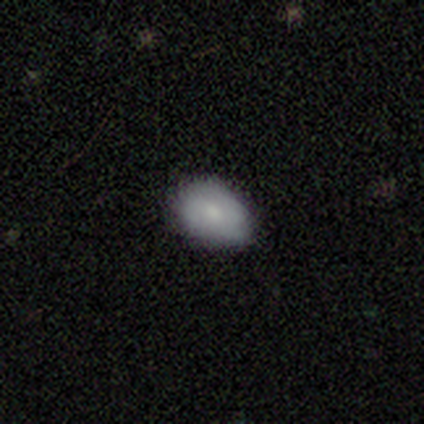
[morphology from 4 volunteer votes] Q: Smooth or featured?
A: smooth (100%)
Q: How rounded?
A: in between (100%)
Q: Merging?
A: none (75%); runner-up: minor disturbance (25%)